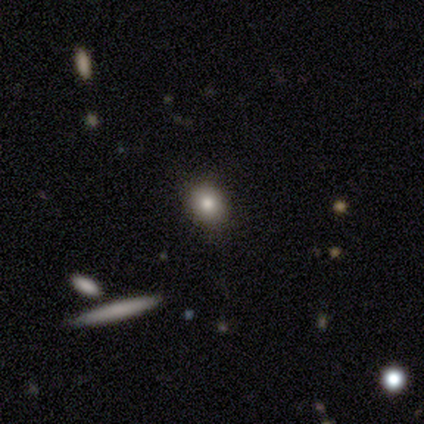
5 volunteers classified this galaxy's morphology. Smooth or featured?
  - smooth: 80% *
  - featured or disk: 20%
  - star or artifact: 0%
How rounded?
  - round: 100% *
  - in between: 0%
  - cigar-shaped: 0%
Merging?
  - none: 80% *
  - minor disturbance: 20%
  - major disturbance: 0%
  - merger: 0%